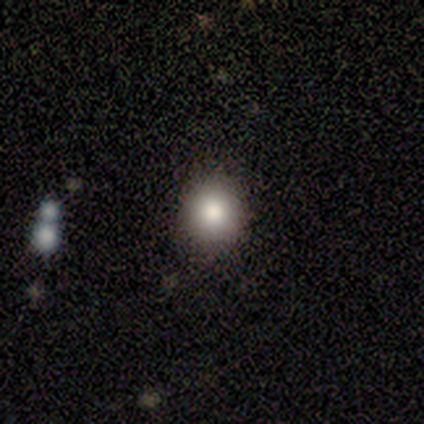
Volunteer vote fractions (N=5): This appears to be a smooth galaxy with no disk features (100%) that is round (100%). Merging: none (100%).